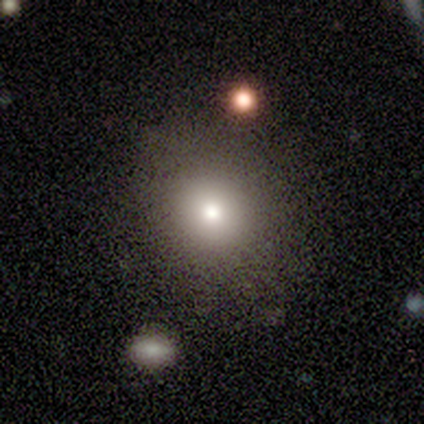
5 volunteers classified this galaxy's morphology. smooth-or-featured: smooth: 100% | featured or disk: 0% | star or artifact: 0%
  how-rounded: round: 100% | in between: 0% | cigar-shaped: 0%
  merging: none: 80% | minor disturbance: 20% | major disturbance: 0% | merger: 0%